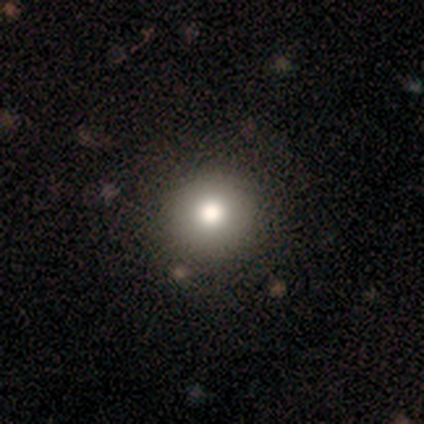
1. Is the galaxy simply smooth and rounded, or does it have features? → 86% smooth, 7% featured or disk, 7% star or artifact.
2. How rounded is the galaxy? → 100% round, 0% in between, 0% cigar-shaped.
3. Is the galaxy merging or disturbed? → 100% none, 0% minor disturbance, 0% major disturbance, 0% merger.